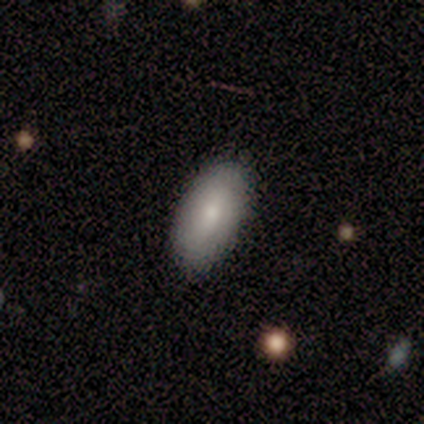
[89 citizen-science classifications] A smooth galaxy with no disk features (83%) that is in between round and cigar-shaped (93%). Merging: none (87%).